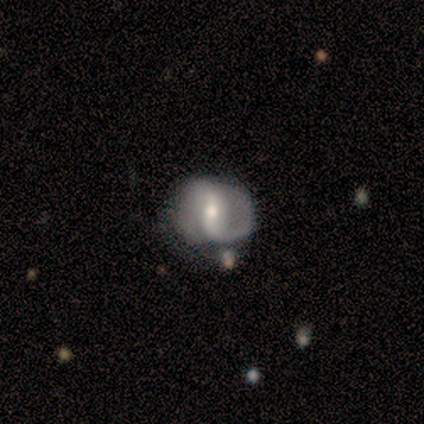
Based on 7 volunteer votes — Smooth or featured? featured or disk (100%)
Edge-on disk? no (100%)
Bar? weak (57%)
Spiral arms? yes (86%)
Spiral winding? medium (50%)
Spiral arm count? 2 (83%)
Bulge size? moderate (57%)
Merging? none (43%)